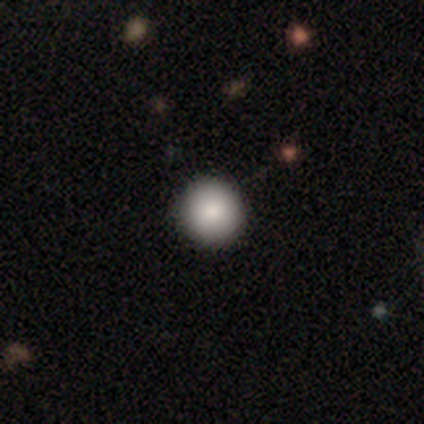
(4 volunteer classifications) Smooth or featured? smooth (75%)
How rounded? round (100%)
Merging? none (100%)